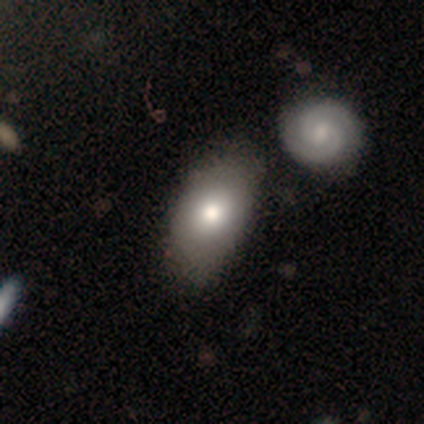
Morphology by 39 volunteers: Smooth or featured?
  - smooth: 77% *
  - featured or disk: 21%
  - star or artifact: 3%
How rounded?
  - in between: 97% *
  - round: 3%
  - cigar-shaped: 0%
Merging?
  - none: 42% *
  - merger: 34%
  - minor disturbance: 11%
  - major disturbance: 3%